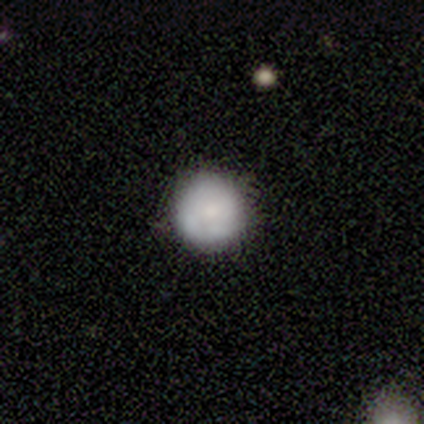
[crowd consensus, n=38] smooth-or-featured: smooth: 74% | featured or disk: 13% | star or artifact: 13%
  how-rounded: round: 96% | in between: 4% | cigar-shaped: 0%
  merging: none: 70% | minor disturbance: 24% | major disturbance: 3% | merger: 3%